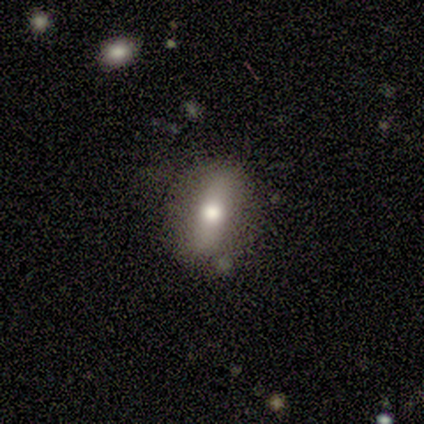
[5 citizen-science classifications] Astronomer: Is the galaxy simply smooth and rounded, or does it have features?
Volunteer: smooth — 40%, tied with star or artifact at 40%.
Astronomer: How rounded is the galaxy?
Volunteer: round — 50%, tied with in between at 50%.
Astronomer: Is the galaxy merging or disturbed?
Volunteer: none — 67%.